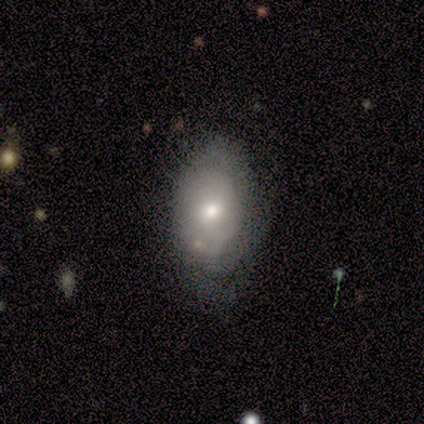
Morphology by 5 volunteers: This is clearly a smooth galaxy (100%). How rounded: clearly in between (80%). Merging: marginally none (40%, tied with minor disturbance).